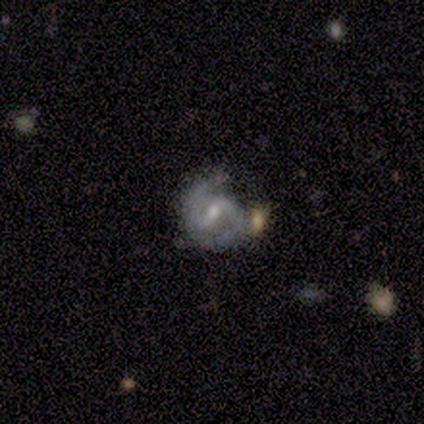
smooth-or-featured: featured or disk: 100% | smooth: 0% | star or artifact: 0%
  disk-edge-on: no: 100% | yes: 0%
    bar: weak: 67% | no: 33% | strong: 0%
    has-spiral-arms: yes: 100% | no: 0%
      spiral-winding: medium: 100% | tight: 0% | loose: 0%
      spiral-arm-count: 2: 100% | 1: 0% | 3: 0% | 4: 0% | more than 4: 0% | can't tell: 0%
    bulge-size: small: 67% | moderate: 33% | dominant: 0% | large: 0% | none: 0%
  merging: merger: 67% | none: 33% | minor disturbance: 0% | major disturbance: 0%